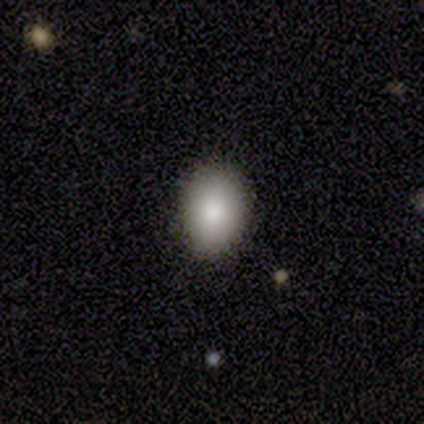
smooth_or_featured: smooth (p=1.00)
how_rounded: in between (p=1.00)
merging: none (p=1.00)